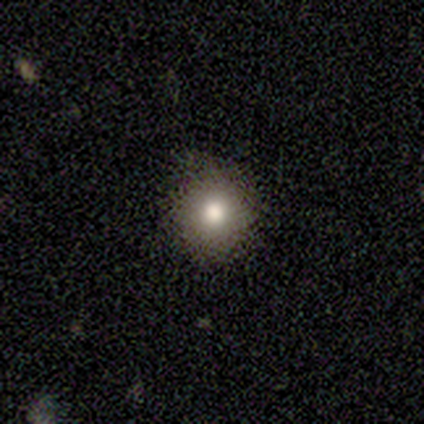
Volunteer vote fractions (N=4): This is possibly a smooth galaxy (50%). How rounded: clearly round (100%). Merging: likely none (67%).